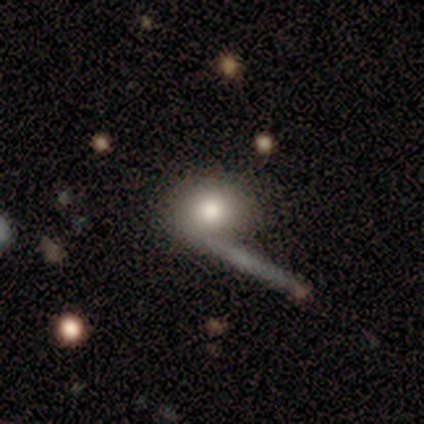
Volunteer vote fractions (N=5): This is clearly a smooth galaxy (80%). How rounded: likely in between (75%). Merging: likely none (60%).